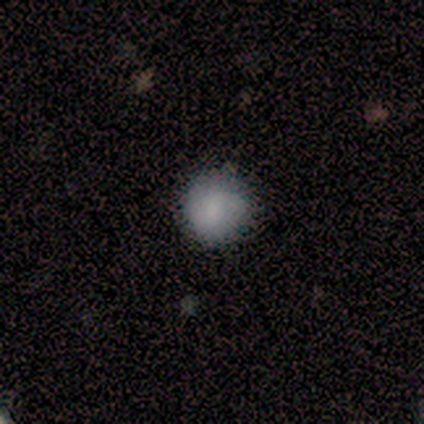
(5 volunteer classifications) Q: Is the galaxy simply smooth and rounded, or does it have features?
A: smooth — 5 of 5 (100%).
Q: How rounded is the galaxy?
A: round — 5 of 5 (100%).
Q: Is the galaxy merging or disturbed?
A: none — 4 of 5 (80%).